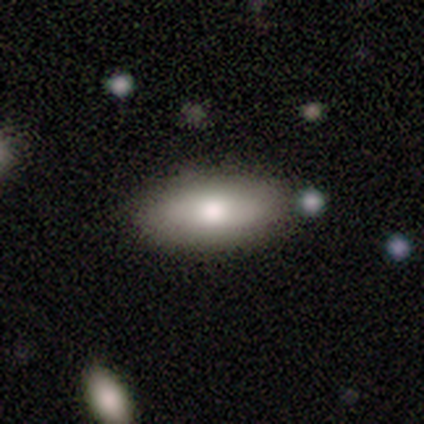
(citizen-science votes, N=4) Smooth or featured? smooth (75%)
How rounded? in between (67%)
Merging? none (75%)